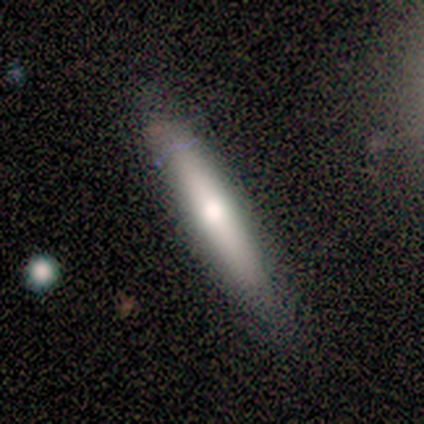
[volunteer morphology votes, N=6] This is clearly a smooth galaxy (83%). How rounded: clearly cigar-shaped (100%). Merging: clearly none (100%).